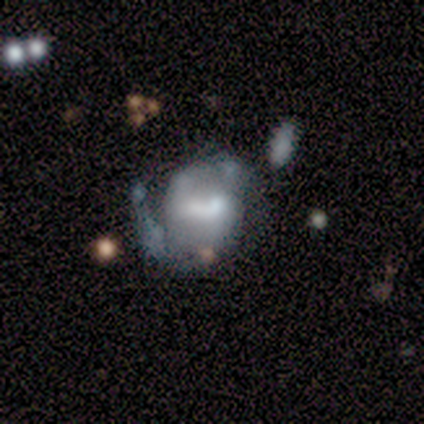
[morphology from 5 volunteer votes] Q: Smooth or featured?
A: featured or disk (80%); runner-up: star or artifact (20%)
Q: Edge-on disk?
A: no (100%)
Q: Bar?
A: strong (50%); runner-up: weak (25%)
Q: Spiral arms?
A: yes (75%); runner-up: no (25%)
Q: Spiral winding?
A: loose (100%)
Q: Spiral arm count?
A: 2 (67%); runner-up: 1 (33%)
Q: Bulge size?
A: moderate (75%); runner-up: none (25%)
Q: Merging?
A: major disturbance (50%); runner-up: minor disturbance (25%)